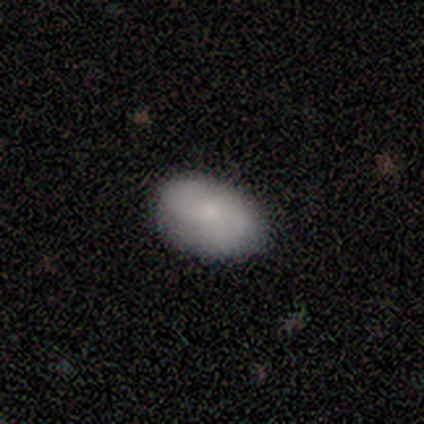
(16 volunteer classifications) This appears to be a smooth galaxy with no disk features (75%) that is in between round and cigar-shaped (100%). Merging: none (94%).